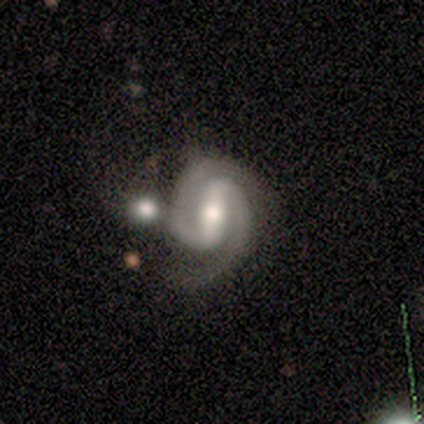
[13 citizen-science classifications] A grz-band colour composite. It shows a featured or disk galaxy (85%) with a strong bar (70%), 2 (100%) tight (78%) spiral arms (90%) and a moderate central bulge (50%). Merging: none (50%, tied with merger).